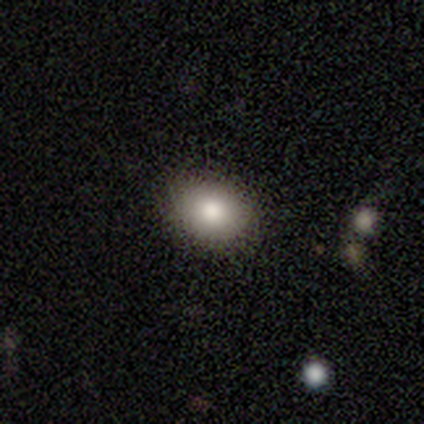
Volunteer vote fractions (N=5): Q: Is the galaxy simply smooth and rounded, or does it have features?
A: smooth — 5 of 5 (100%).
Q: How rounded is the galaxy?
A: in between — 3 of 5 (60%).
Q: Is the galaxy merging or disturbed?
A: none — 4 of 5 (80%).